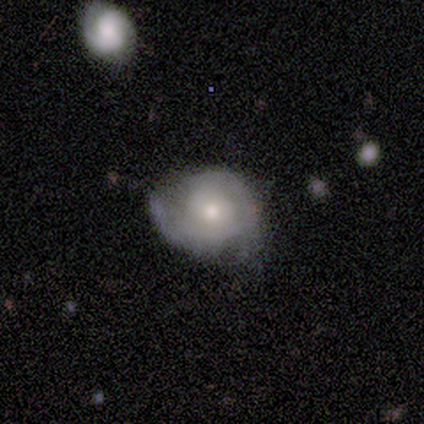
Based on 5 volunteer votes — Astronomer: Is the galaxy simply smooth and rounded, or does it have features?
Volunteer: featured or disk — 80%.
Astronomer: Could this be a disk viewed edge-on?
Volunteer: no — 100%.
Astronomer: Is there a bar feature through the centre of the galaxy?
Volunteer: weak — 50%, tied with no at 50%.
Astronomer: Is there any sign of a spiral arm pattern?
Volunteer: yes — 100%.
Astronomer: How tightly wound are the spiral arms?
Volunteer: tight — 100%.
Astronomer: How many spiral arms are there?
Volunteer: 2 — 75%.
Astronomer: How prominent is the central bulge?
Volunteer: moderate — 75%.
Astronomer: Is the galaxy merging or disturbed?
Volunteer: minor disturbance — 60% (runner-up: none, 40%).